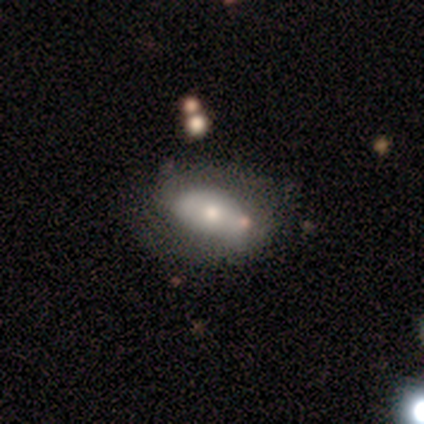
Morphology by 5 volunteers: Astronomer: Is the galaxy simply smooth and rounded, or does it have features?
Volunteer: smooth — 60% (runner-up: featured or disk, 40%).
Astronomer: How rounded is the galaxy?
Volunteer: in between — 100%.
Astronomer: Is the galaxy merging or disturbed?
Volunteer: none — 60%.